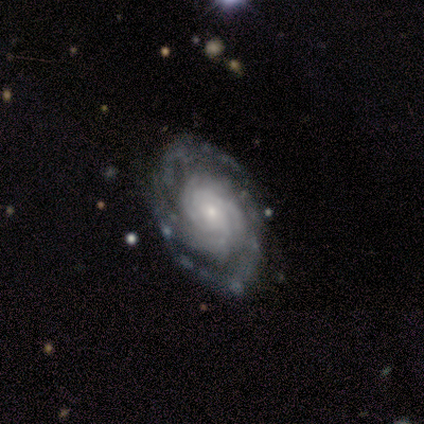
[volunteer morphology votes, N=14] This appears to be a featured or disk galaxy (93%) with no bar (85%), 2 (25%, tied with 3, more than 4 and can't tell) tight (75%) spiral arms (92%) and a small central bulge (77%). Merging: none (86%).